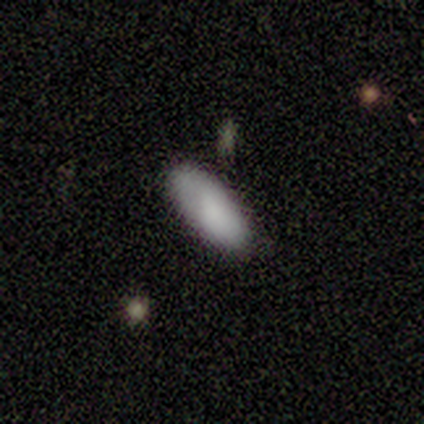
smooth 60%, featured or disk 20%, star or artifact 20%. Down the decision tree: how rounded — in between (100%); merging — none (75%).